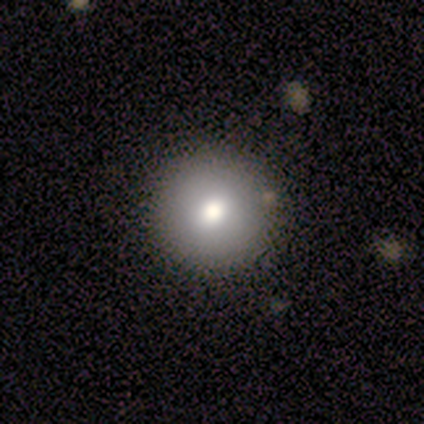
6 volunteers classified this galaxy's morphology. smooth_or_featured: smooth (p=0.67) [alt: featured or disk p=0.17]
how_rounded: round (p=1.00)
merging: none (p=0.80) [alt: minor disturbance p=0.20]